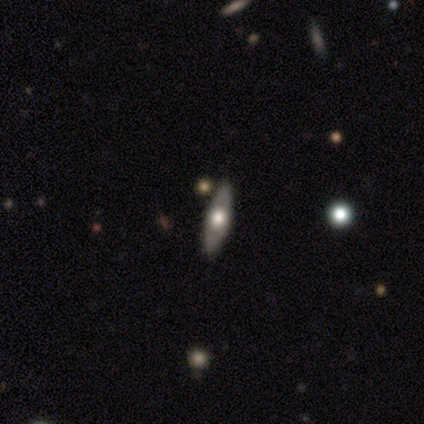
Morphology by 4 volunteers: Smooth or featured? 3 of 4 (75%) said smooth. How rounded? 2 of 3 (67%) said in between. Merging? 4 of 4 (100%) said none.